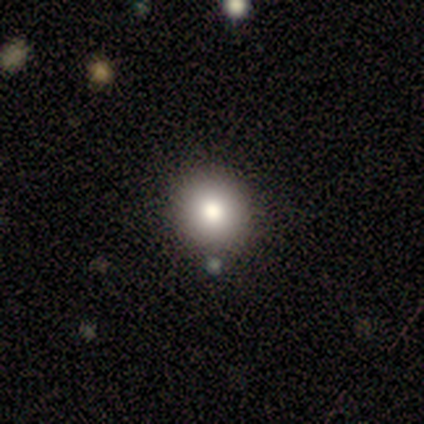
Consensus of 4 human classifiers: Q: Smooth or featured?
A: smooth (50%); tied with: featured or disk (50%)
Q: How rounded?
A: round (100%)
Q: Merging?
A: none (100%)